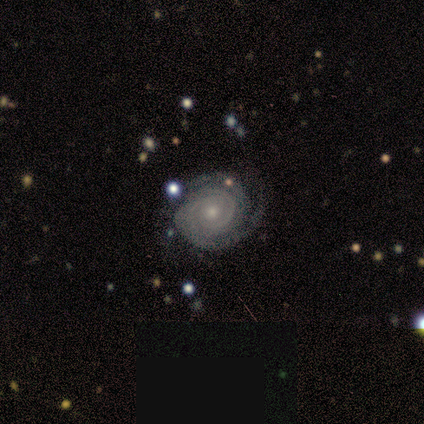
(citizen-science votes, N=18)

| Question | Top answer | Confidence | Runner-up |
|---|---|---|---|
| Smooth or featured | featured or disk | 100% | — |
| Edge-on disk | no | 100% | — |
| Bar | no | 78% | weak (22%) |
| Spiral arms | yes | 100% | — |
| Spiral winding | tight | 83% | medium (17%) |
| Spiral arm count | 2 | 50% | can't tell (33%) |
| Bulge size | small | 89% | moderate (11%) |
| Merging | none | 78% | minor disturbance (17%) |